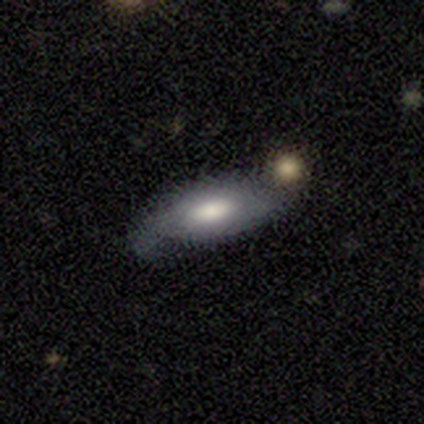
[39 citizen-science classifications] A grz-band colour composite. It shows a smooth galaxy with no disk features (62%) that is in between round and cigar-shaped (79%). Merging: none (41%).